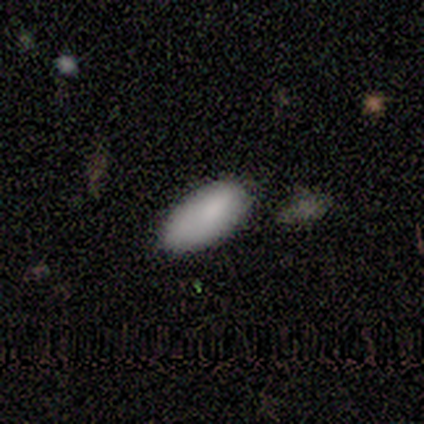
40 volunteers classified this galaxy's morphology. smooth 85%, featured or disk 10%, star or artifact 5%. Down the decision tree: how rounded — in between (97%); merging — none (66%).